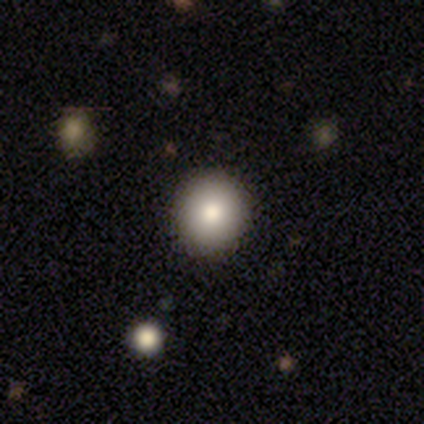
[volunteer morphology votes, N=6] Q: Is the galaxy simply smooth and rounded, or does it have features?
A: smooth — 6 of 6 (100%).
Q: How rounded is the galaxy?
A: round — 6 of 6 (100%).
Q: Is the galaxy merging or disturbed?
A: none — 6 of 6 (100%).